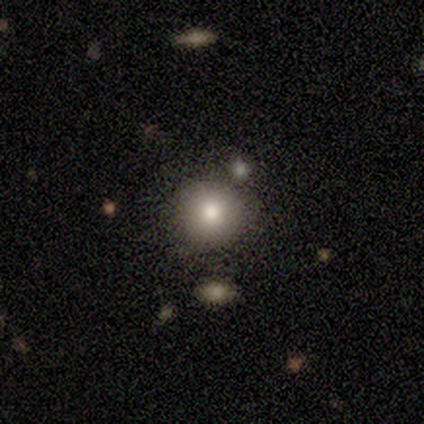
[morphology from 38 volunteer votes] A smooth galaxy with no disk features (89%) that is round (91%). Merging: none (89%).